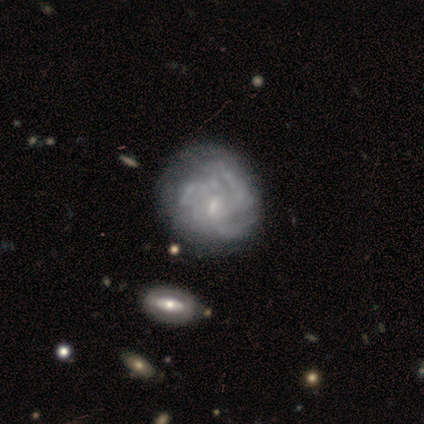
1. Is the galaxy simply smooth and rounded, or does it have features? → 83% featured or disk, 17% smooth, 0% star or artifact.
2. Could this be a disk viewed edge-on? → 100% no, 0% yes.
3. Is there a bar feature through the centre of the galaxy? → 80% weak, 20% no, 0% strong.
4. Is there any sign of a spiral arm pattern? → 80% yes, 20% no.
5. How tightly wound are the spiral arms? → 50% tight (tied), 50% medium (tied), 0% loose.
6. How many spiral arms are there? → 75% can't tell, 25% 3, 0% 1, 0% 2, 0% 4, 0% more than 4.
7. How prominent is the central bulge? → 40% small (tied), 40% none (tied), 20% moderate, 0% dominant, 0% large.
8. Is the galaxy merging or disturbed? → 33% none (tied), 33% major disturbance (tied), 17% minor disturbance, 17% merger.